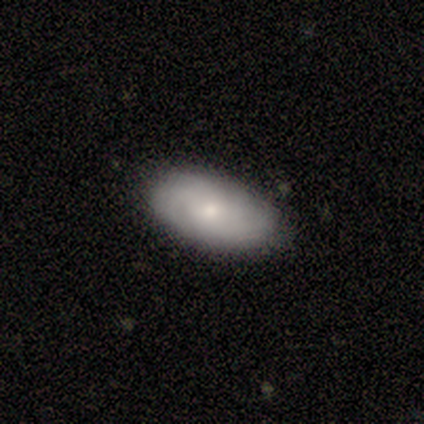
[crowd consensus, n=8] smooth_or_featured: featured or disk (p=0.50) [alt: smooth p=0.38]
disk_edge_on: no (p=1.00)
bar: no (p=0.75) [alt: weak p=0.25]
has_spiral_arms: yes (p=1.00)
spiral_winding: tight (p=0.50) [tied with: medium p=0.50]
spiral_arm_count: can't tell (p=0.75) [alt: 3 p=0.25]
bulge_size: small (p=0.75) [alt: moderate p=0.25]
merging: none (p=1.00)